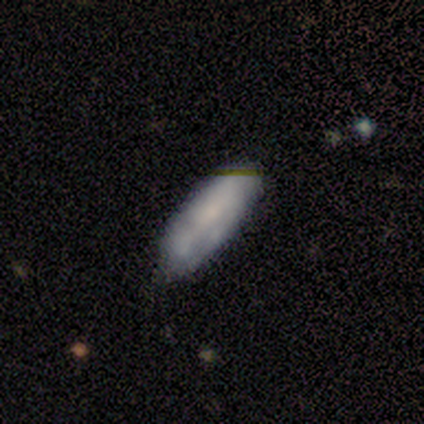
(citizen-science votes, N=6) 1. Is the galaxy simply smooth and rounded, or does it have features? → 67% smooth, 33% featured or disk, 0% star or artifact.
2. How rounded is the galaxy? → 50% in between (tied), 50% cigar-shaped (tied), 0% round.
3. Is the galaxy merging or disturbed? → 83% none, 17% minor disturbance, 0% major disturbance, 0% merger.